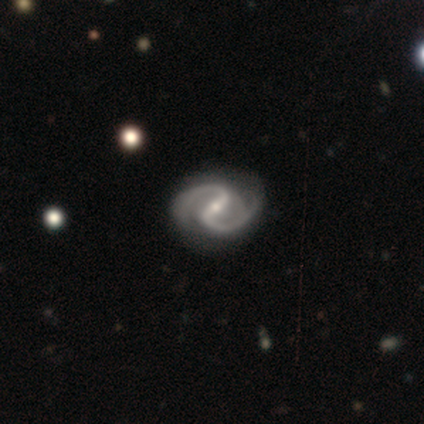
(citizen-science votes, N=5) Smooth or featured?
  - featured or disk: 100% *
  - smooth: 0%
  - star or artifact: 0%
Edge-on disk?
  - no: 100% *
  - yes: 0%
Bar?
  - strong: 80% *
  - weak: 20%
  - no: 0%
Spiral arms?
  - yes: 100% *
  - no: 0%
Spiral winding?
  - medium: 80% *
  - tight: 20%
  - loose: 0%
Spiral arm count?
  - 2: 100% *
  - 1: 0%
  - 3: 0%
  - 4: 0%
  - more than 4: 0%
  - can't tell: 0%
Bulge size?
  - small: 100% *
  - dominant: 0%
  - large: 0%
  - moderate: 0%
  - none: 0%
Merging?
  - none: 100% *
  - minor disturbance: 0%
  - major disturbance: 0%
  - merger: 0%